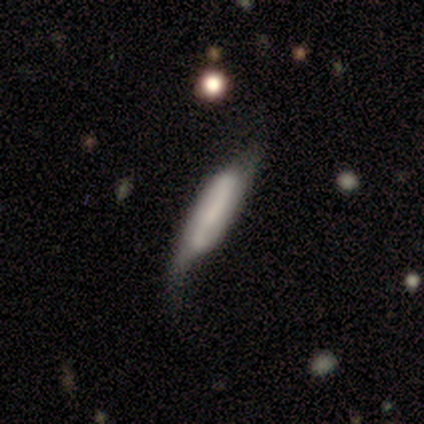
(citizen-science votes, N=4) A smooth galaxy with no disk features (100%) that is cigar-shaped (100%). Merging: minor disturbance (75%).